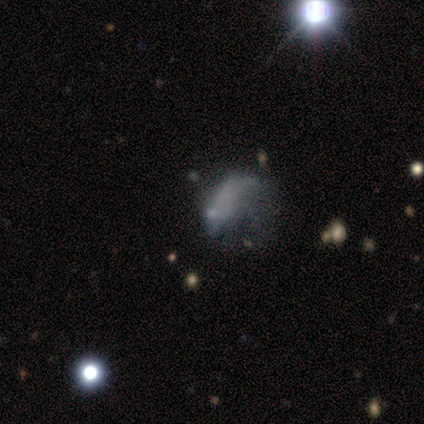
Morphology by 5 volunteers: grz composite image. It shows a featured or disk galaxy (80%) with no bar (100%), no spiral arms (75%) and a small central bulge (75%). Merging: minor disturbance (40%, tied with major disturbance).